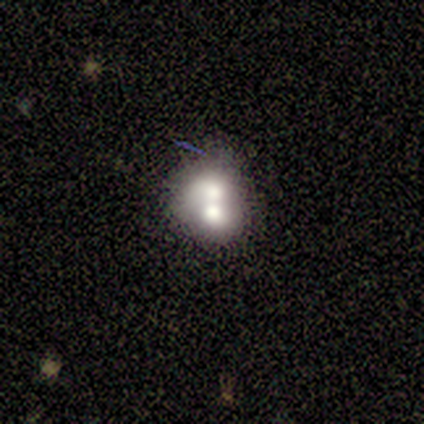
This is possibly a featured or disk galaxy (50%). It is clearly not viewed edge-on (100%). Bar: clearly no (100%). Spiral arm pattern: clearly no (100%). Central bulge: possibly large (50%, tied with none). Merging: likely merger (67%).